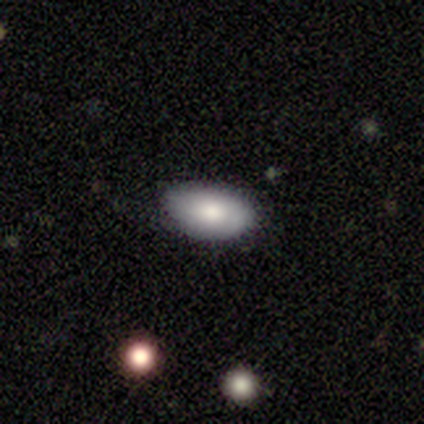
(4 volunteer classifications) smooth-or-featured: smooth: 50% | featured or disk: 25% | star or artifact: 25%
  how-rounded: in between: 100% | round: 0% | cigar-shaped: 0%
  merging: none: 100% | minor disturbance: 0% | major disturbance: 0% | merger: 0%